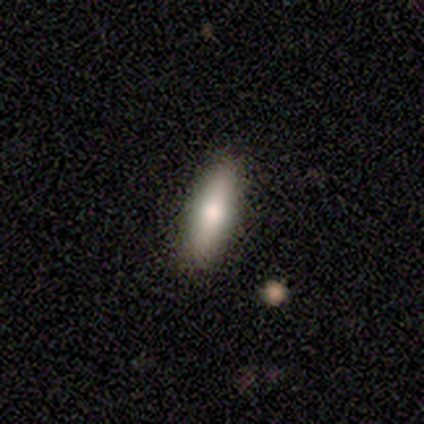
A featured or disk galaxy (62%) viewed edge-on (80%) with a rounded central bulge (100%).

Vote fractions:
- Smooth or featured? featured or disk: 62% / smooth: 38% / star or artifact: 0%
- Edge-on disk? yes: 80% / no: 20%
- Edge-on bulge? rounded: 100% / boxy: 0% / none: 0%
- Merging? none: 88% / minor disturbance: 12% / major disturbance: 0% / merger: 0%